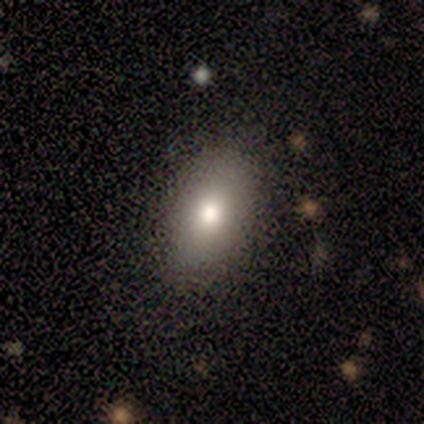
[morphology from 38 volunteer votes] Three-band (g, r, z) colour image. It shows a smooth galaxy with no disk features (76%) that is in between round and cigar-shaped (90%). Merging: none (81%).